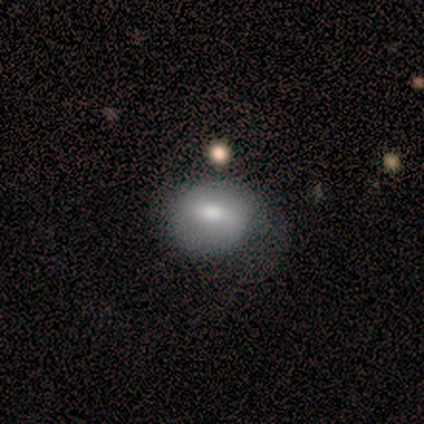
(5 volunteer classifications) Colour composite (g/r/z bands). It shows a smooth galaxy with no disk features (40%, tied with featured or disk) that is round (50%, tied with in between). Merging: none (50%).